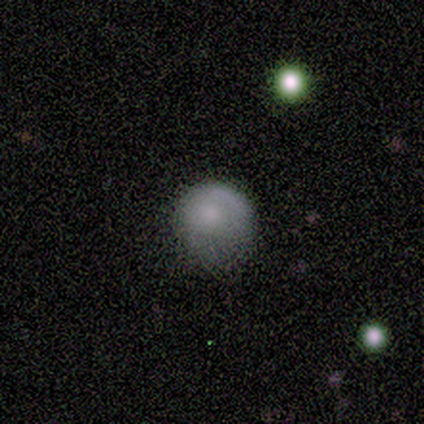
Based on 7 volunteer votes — Q: Smooth or featured?
A: smooth (100%)
Q: How rounded?
A: round (100%)
Q: Merging?
A: minor disturbance (43%); runner-up: none (29%)